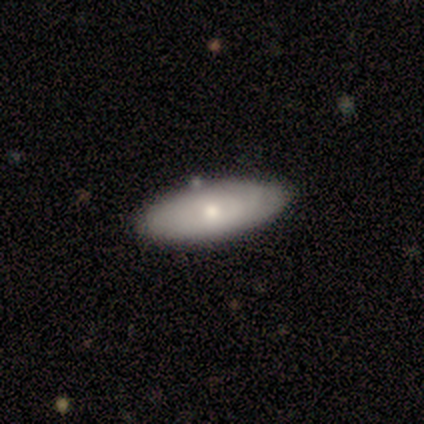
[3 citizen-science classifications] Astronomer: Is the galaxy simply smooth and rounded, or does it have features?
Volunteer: smooth — 67%.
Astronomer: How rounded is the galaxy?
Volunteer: in between — 100%.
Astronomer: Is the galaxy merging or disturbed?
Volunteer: none — 100%.